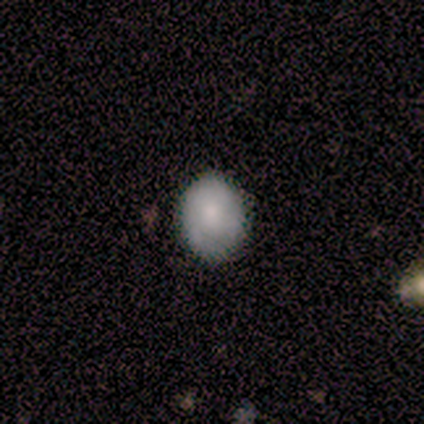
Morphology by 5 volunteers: Overall: smooth (60%; featured or disk 40%). How rounded: round (67%; in between 33%). Merging: none (80%).